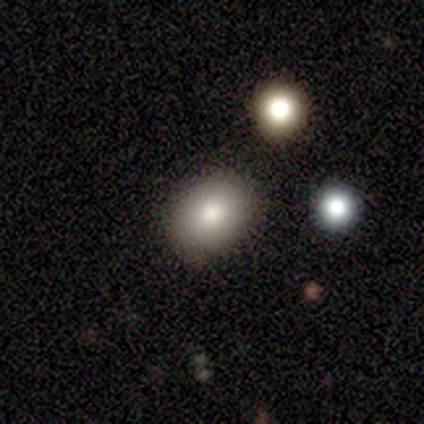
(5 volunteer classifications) smooth_or_featured: smooth (p=1.00)
how_rounded: round (p=0.80) [alt: in between p=0.20]
merging: none (p=1.00)